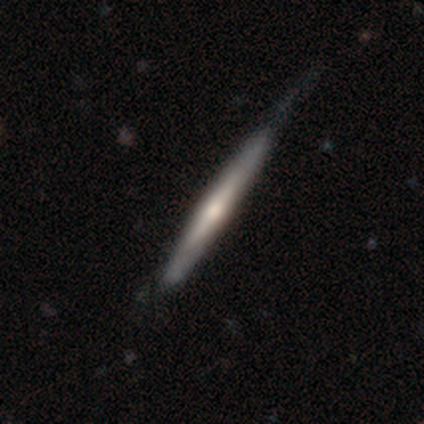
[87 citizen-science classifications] A featured or disk galaxy (62%) viewed edge-on (94%) with a rounded central bulge (76%). Merging: none (54%).